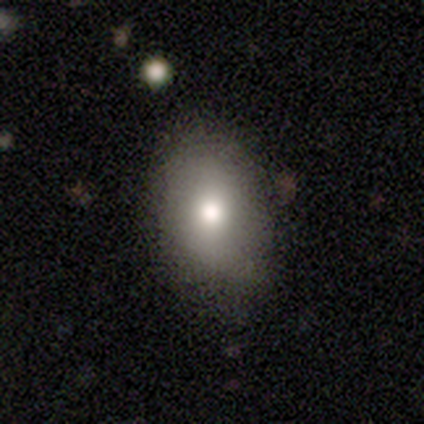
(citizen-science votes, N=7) smooth_or_featured: smooth (p=0.71) [alt: featured or disk p=0.14]
how_rounded: in between (p=1.00)
merging: none (p=0.83) [alt: minor disturbance p=0.17]